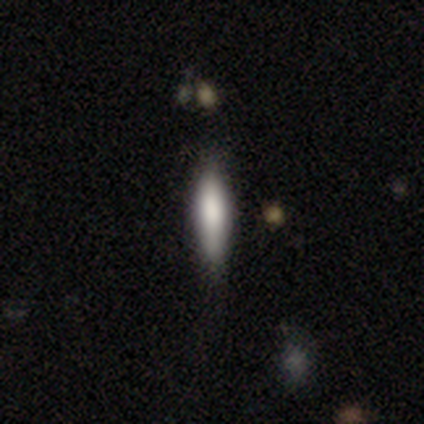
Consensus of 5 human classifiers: Smooth or featured? smooth (40%, tied with featured or disk)
How rounded? cigar-shaped (100%)
Merging? none (100%)